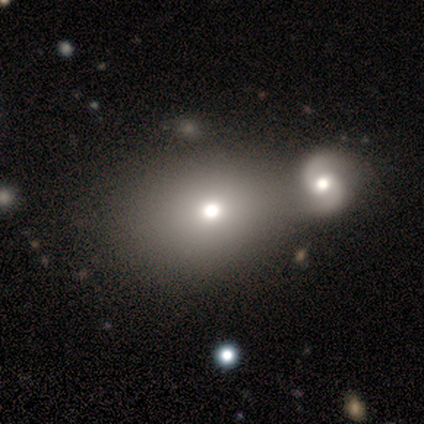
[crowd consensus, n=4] Smooth or featured? smooth (100%)
How rounded? round (50%, tied with in between)
Merging? none (100%)